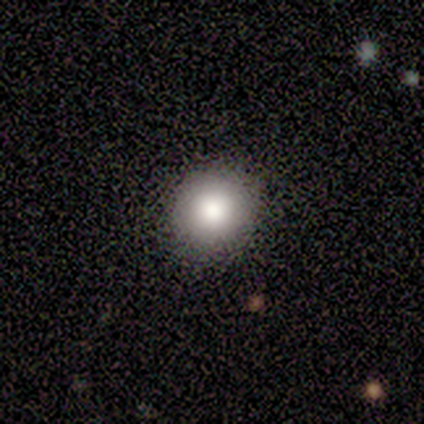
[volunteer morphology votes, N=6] A smooth galaxy with no disk features (67%) that is round (100%). Merging: none (100%).